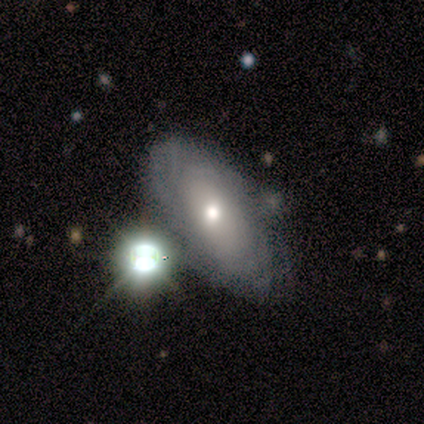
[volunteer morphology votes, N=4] This is possibly a smooth galaxy (50%). How rounded: clearly in between (100%). Merging: likely minor disturbance (67%).